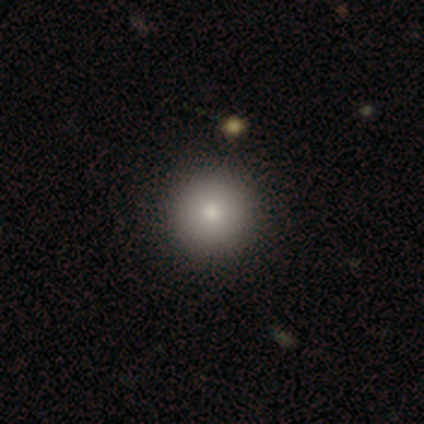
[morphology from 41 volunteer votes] Volunteers were most divided on "smooth or featured": smooth: 88%, featured or disk: 12%, star or artifact: 0%. More confident: how rounded — round (100%); merging — none (83%).